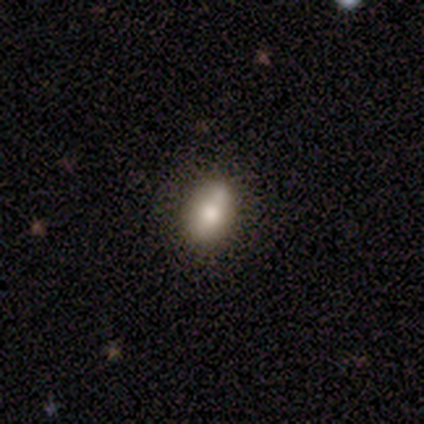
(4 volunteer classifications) Q: Smooth or featured?
A: smooth (100%)
Q: How rounded?
A: in between (100%)
Q: Merging?
A: none (75%); runner-up: minor disturbance (25%)